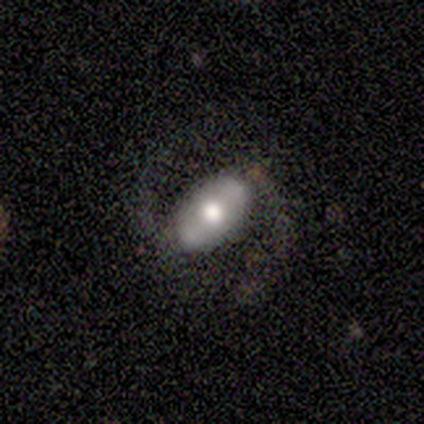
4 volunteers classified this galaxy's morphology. A featured or disk galaxy (75%) with a weak bar (50%, tied with no), 2 (50%, tied with can't tell) medium (100%) spiral arms (100%) and a moderate central bulge (100%).

Vote fractions:
- Smooth or featured? featured or disk: 75% / smooth: 25% / star or artifact: 0%
- Edge-on disk? no: 67% / yes: 33%
- Bar? weak: 50% (tied) / no: 50% (tied) / strong: 0%
- Spiral arms? yes: 100% / no: 0%
- Spiral winding? medium: 100% / tight: 0% / loose: 0%
- Spiral arm count? 2: 50% (tied) / can't tell: 50% (tied) / 1: 0% / 3: 0% / 4: 0% / more than 4: 0%
- Bulge size? moderate: 100% / dominant: 0% / large: 0% / small: 0% / none: 0%
- Merging? none: 50% / minor disturbance: 25% / major disturbance: 25% / merger: 0%